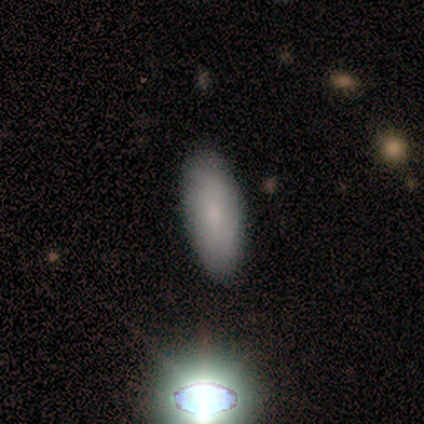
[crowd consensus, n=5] Smooth or featured? smooth (60%)
How rounded? in between (100%)
Merging? none (100%)